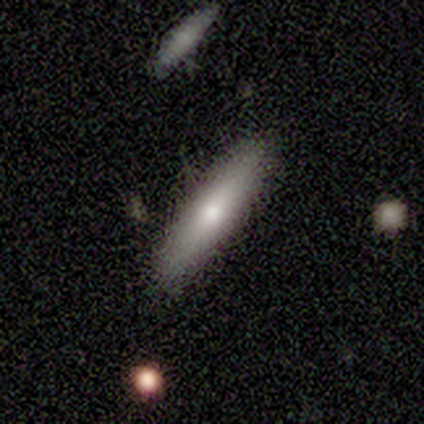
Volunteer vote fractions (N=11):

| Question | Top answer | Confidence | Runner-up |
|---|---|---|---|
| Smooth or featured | smooth | 55% | featured or disk (36%) |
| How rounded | cigar-shaped | 100% | — |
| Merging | none | 80% | minor disturbance (20%) |